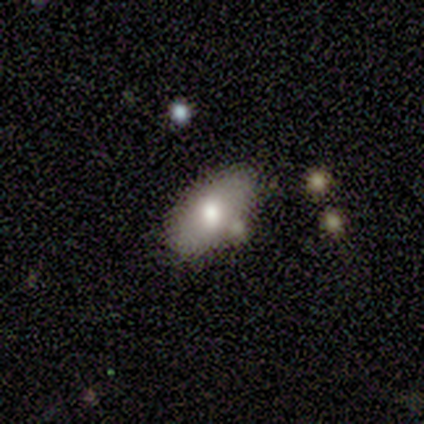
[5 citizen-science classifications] Smooth or featured?
  - star or artifact: 60% *
  - smooth: 40%
  - featured or disk: 0%